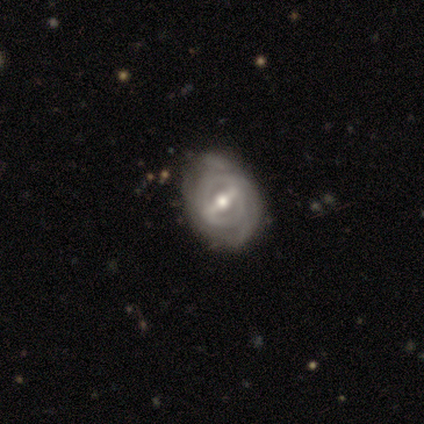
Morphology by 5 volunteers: Smooth or featured: featured or disk — 100%
Edge-on disk: no — 100%
Bar: weak — 60% (strong — 40%)
Spiral arms: yes — 100%
Spiral winding: tight — 80% (medium — 20%)
Spiral arm count: 2 — 40% (tied with can't tell — 40%)
Bulge size: moderate — 60% (large — 20%)
Merging: none — 100%